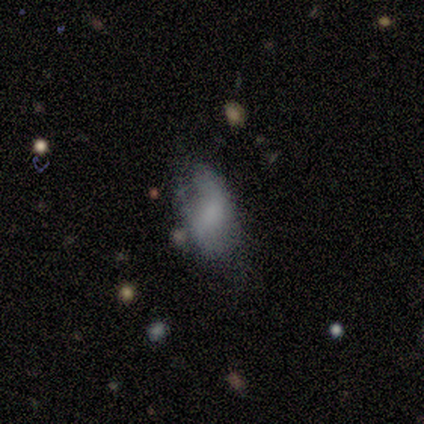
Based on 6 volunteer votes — smooth-or-featured: featured or disk: 50% | smooth: 33% | star or artifact: 17%
  disk-edge-on: no: 67% | yes: 33%
    bar: no: 100% | strong: 0% | weak: 0%
    has-spiral-arms: yes: 50% (tied) | no: 50% (tied)
      spiral-winding: medium: 100% | tight: 0% | loose: 0%
      spiral-arm-count: can't tell: 100% | 1: 0% | 2: 0% | 3: 0% | 4: 0% | more than 4: 0%
    bulge-size: none: 100% | dominant: 0% | large: 0% | moderate: 0% | small: 0%
  merging: none: 40% (tied) | minor disturbance: 40% (tied) | major disturbance: 20% | merger: 0%